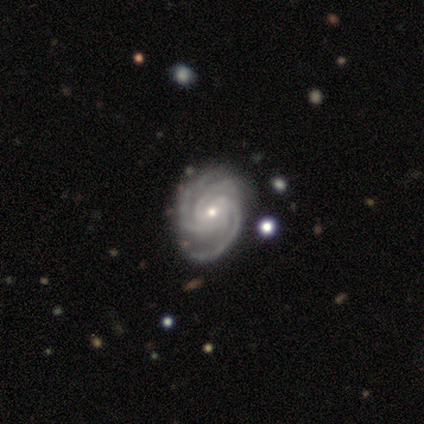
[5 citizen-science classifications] smooth_or_featured: featured or disk (p=0.80) [alt: smooth p=0.20]
disk_edge_on: no (p=1.00)
bar: no (p=0.75) [alt: weak p=0.25]
has_spiral_arms: yes (p=1.00)
spiral_winding: tight (p=0.75) [alt: medium p=0.25]
spiral_arm_count: 3 (p=0.75) [alt: 2 p=0.25]
bulge_size: small (p=1.00)
merging: none (p=0.60) [alt: minor disturbance p=0.40]